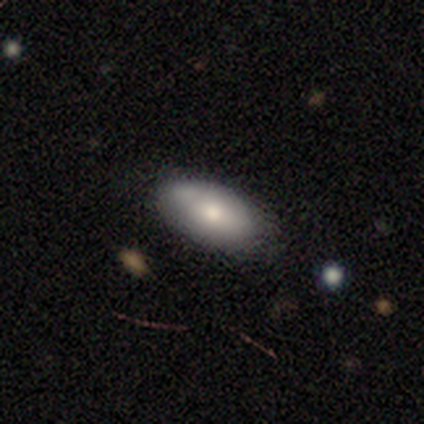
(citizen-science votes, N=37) Smooth or featured: smooth — 76% (featured or disk — 24%)
How rounded: in between — 93% (round — 4%)
Merging: none — 68% (minor disturbance — 24%)